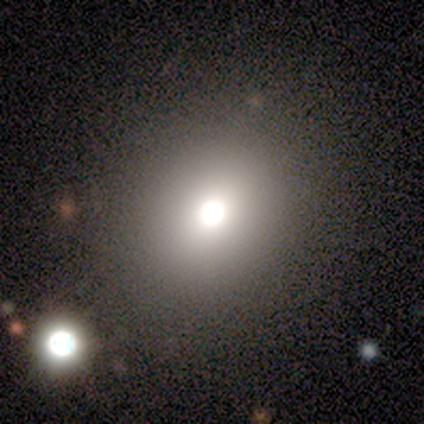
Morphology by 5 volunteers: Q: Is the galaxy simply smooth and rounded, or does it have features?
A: smooth — 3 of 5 (60%).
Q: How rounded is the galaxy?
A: round — 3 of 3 (100%).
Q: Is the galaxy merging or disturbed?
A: none — 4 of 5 (80%).